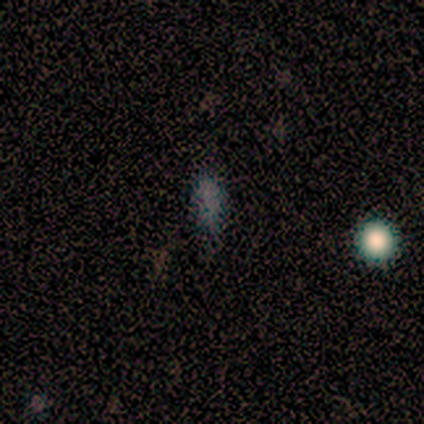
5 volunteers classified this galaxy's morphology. This is likely a smooth galaxy (60%). How rounded: likely in between (67%). Merging: likely none (67%).